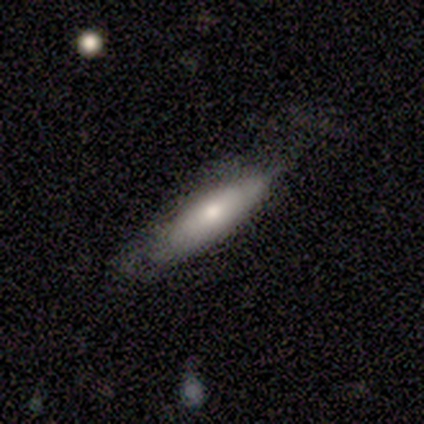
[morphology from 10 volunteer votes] Smooth or featured: smooth — 60% (featured or disk — 20%)
How rounded: cigar-shaped — 83% (in between — 17%)
Merging: none — 62% (minor disturbance — 38%)